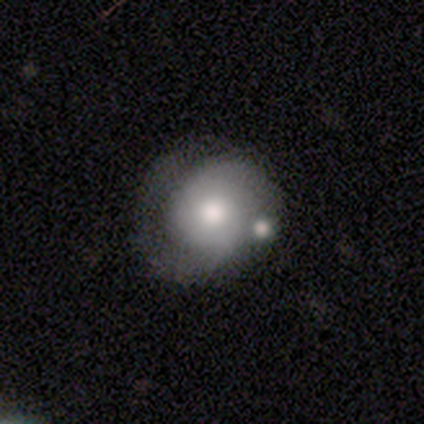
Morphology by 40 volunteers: Smooth or featured?
  - smooth: 52% *
  - featured or disk: 35%
  - star or artifact: 12%
How rounded?
  - round: 71% *
  - in between: 29%
  - cigar-shaped: 0%
Merging?
  - none: 34% *
  - minor disturbance: 29%
  - merger: 20%
  - major disturbance: 17%